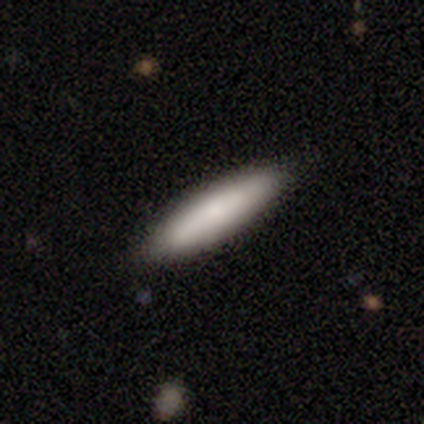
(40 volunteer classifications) Volunteers were most divided on "how rounded": cigar-shaped: 71%, in between: 29%, round: 0%. More confident: smooth or featured — smooth (88%); merging — none (86%).